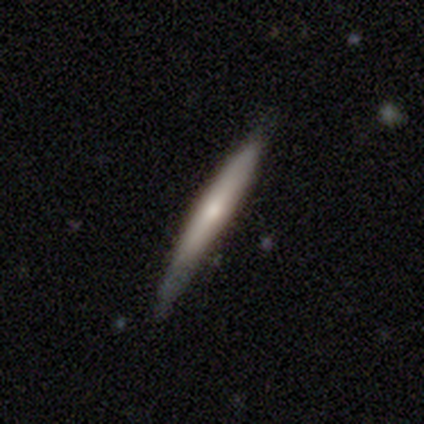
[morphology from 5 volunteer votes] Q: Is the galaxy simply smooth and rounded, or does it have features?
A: featured or disk — 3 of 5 (60%).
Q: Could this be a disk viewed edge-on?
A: yes — 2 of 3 (67%).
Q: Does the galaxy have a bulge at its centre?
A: none — 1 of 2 (50%, tied with rounded).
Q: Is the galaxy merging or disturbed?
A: none — 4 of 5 (80%).